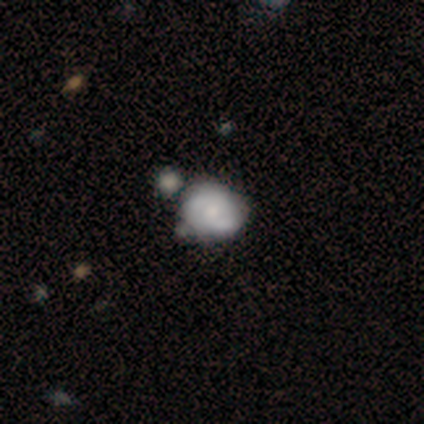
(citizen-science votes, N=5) A featured or disk galaxy (60%) with no bar (67%), 2 (100%) tight (67%) spiral arms (100%) and a moderate central bulge (67%). Merging: none (100%).